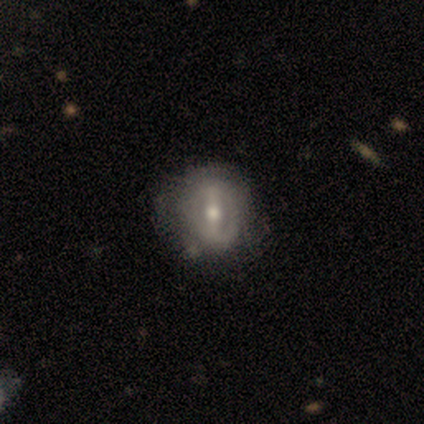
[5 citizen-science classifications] Smooth or featured: featured or disk — 80% (smooth — 20%)
Edge-on disk: no — 100%
Bar: strong — 50% (tied with weak — 50%)
Spiral arms: no — 100%
Bulge size: moderate — 75% (small — 25%)
Merging: none — 60% (minor disturbance — 40%)